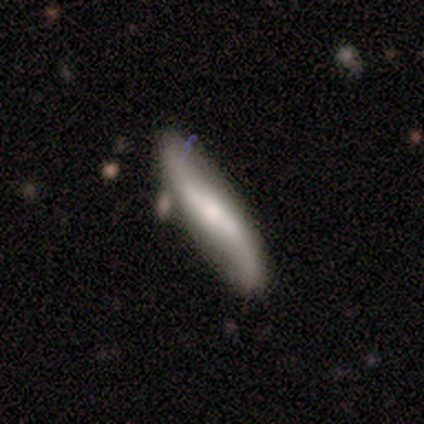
Morphology: type=featured or disk (100%); edge-on=yes (50%, tied with no); edge-on bulge=rounded (100%); merging=none (100%).